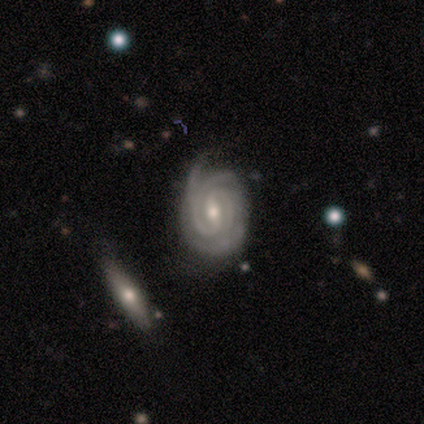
Q: Smooth or featured?
A: featured or disk (89%); runner-up: star or artifact (8%)
Q: Edge-on disk?
A: no (94%); runner-up: yes (6%)
Q: Bar?
A: weak (44%); runner-up: strong (41%)
Q: Spiral arms?
A: yes (100%)
Q: Spiral winding?
A: tight (88%); runner-up: medium (12%)
Q: Spiral arm count?
A: 2 (59%); runner-up: 3 (22%)
Q: Bulge size?
A: moderate (53%); runner-up: small (44%)
Q: Merging?
A: none (49%); runner-up: minor disturbance (37%)